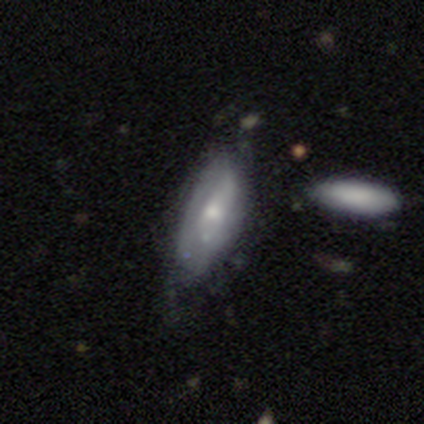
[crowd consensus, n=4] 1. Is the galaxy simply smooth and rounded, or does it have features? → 75% featured or disk, 25% smooth, 0% star or artifact.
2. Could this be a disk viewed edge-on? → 67% no, 33% yes.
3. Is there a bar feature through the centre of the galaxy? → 50% weak (tied), 50% no (tied), 0% strong.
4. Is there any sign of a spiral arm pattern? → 50% yes (tied), 50% no (tied).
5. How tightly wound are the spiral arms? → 100% loose, 0% tight, 0% medium.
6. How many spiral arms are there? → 100% 1, 0% 2, 0% 3, 0% 4, 0% more than 4, 0% can't tell.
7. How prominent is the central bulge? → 100% small, 0% dominant, 0% large, 0% moderate, 0% none.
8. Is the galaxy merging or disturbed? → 75% none, 25% minor disturbance, 0% major disturbance, 0% merger.